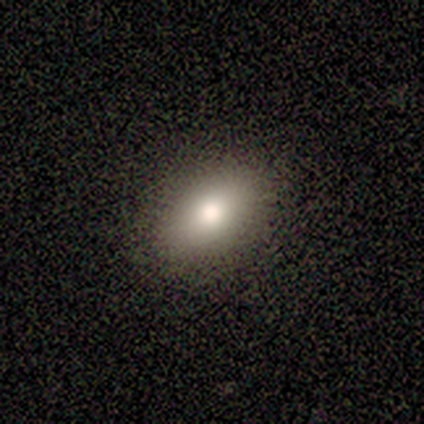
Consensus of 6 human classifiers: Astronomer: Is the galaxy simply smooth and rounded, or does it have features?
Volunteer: smooth — 83%.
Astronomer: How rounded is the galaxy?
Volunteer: in between — 100%.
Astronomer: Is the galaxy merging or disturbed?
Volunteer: none — 100%.